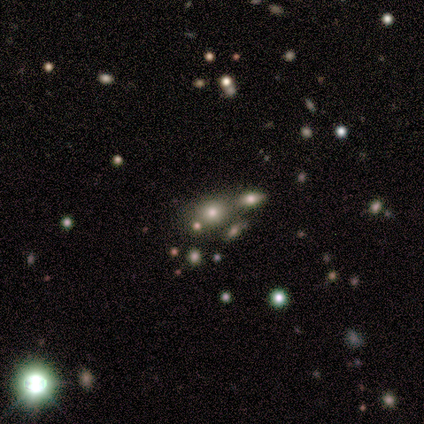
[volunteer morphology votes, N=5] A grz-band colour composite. It shows a star or artifact, not a galaxy (80%).